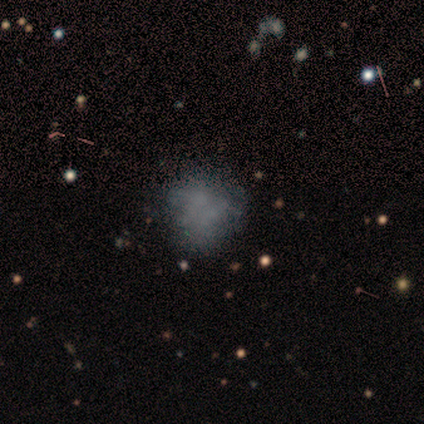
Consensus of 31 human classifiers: Q: Smooth or featured?
A: featured or disk (42%); runner-up: smooth (35%)
Q: Edge-on disk?
A: no (100%)
Q: Bar?
A: no (92%); runner-up: weak (8%)
Q: Spiral arms?
A: no (100%)
Q: Bulge size?
A: none (92%); runner-up: small (8%)
Q: Merging?
A: none (54%); runner-up: minor disturbance (33%)